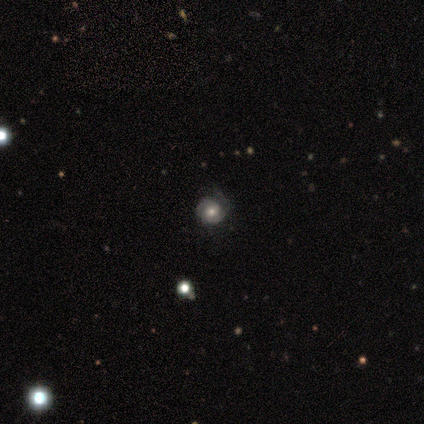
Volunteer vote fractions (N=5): Overall: featured or disk (80%). Edge-on disk: no (100%). Bar: no (75%). Spiral arms: yes (100%). Spiral arm count: 2 (75%). Spiral winding: tight (50%, tied with medium). Bulge size: moderate (100%). Merging: none (60%; minor disturbance 20%).